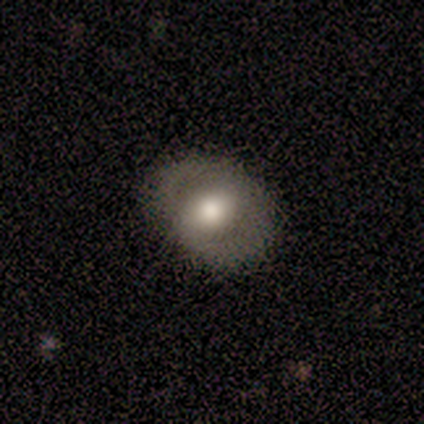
Volunteers were most divided on "how rounded" (2-way tie): round: 50%, in between: 50%, cigar-shaped: 0%. More confident: merging — none (86%); smooth or featured — smooth (57%).